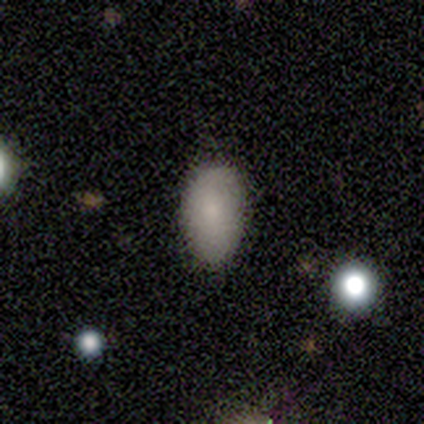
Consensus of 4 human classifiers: Smooth or featured: smooth — 100%
How rounded: in between — 100%
Merging: none — 100%